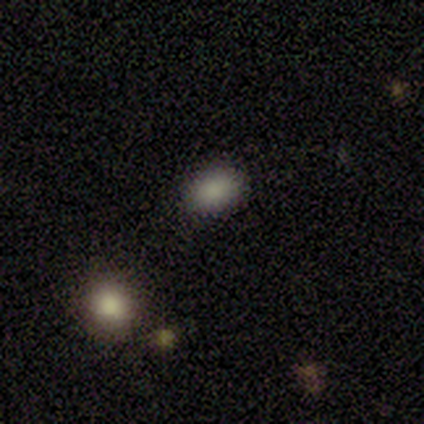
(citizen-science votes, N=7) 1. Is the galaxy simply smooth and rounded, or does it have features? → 100% smooth, 0% featured or disk, 0% star or artifact.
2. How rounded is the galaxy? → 71% in between, 29% round, 0% cigar-shaped.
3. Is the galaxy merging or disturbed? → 86% none, 14% minor disturbance, 0% major disturbance, 0% merger.